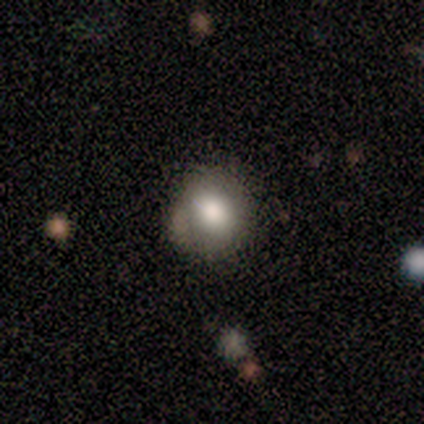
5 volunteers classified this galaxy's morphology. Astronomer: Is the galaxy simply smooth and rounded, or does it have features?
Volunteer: smooth — 40%, tied with featured or disk at 40%.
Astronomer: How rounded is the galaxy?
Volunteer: round — 100%.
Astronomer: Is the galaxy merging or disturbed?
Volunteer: none — 100%.